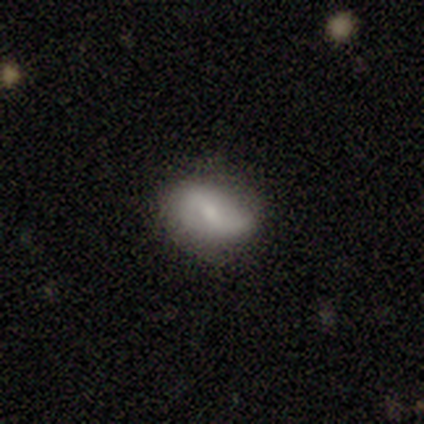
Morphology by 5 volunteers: This is marginally a smooth galaxy (40%, tied with featured or disk). How rounded: clearly in between (100%). Merging: likely none (75%).